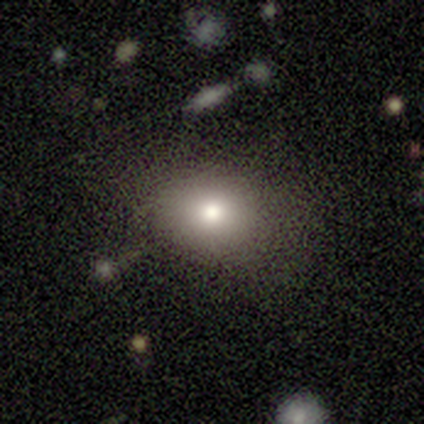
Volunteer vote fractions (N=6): smooth_or_featured: smooth (p=0.67) [alt: star or artifact p=0.33]
how_rounded: round (p=0.75) [alt: in between p=0.25]
merging: none (p=1.00)